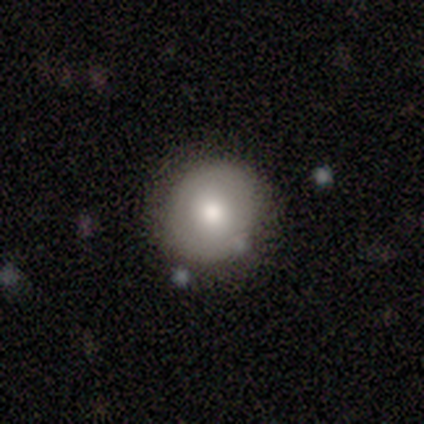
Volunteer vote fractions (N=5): This appears to be a smooth galaxy with no disk features (80%) that is round (100%). Merging: none (60%).